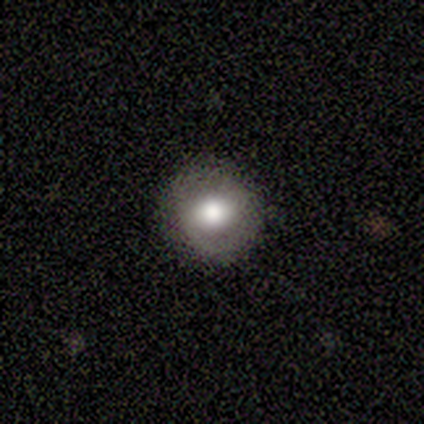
Smooth or featured?
  - smooth: 60% *
  - featured or disk: 20%
  - star or artifact: 20%
How rounded?
  - round: 67% *
  - in between: 33%
  - cigar-shaped: 0%
Merging?
  - none: 100% *
  - minor disturbance: 0%
  - major disturbance: 0%
  - merger: 0%